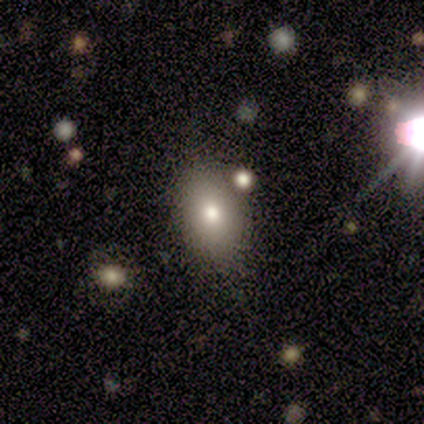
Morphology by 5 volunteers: A smooth galaxy with no disk features (100%) that is in between round and cigar-shaped (100%). Merging: none (100%).